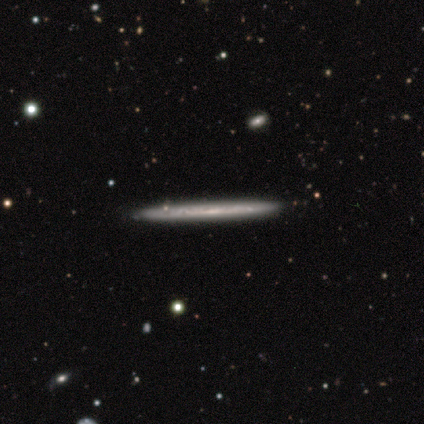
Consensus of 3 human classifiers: Smooth or featured? 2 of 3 (67%) said featured or disk. Edge-on disk? 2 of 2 (100%) said yes. Edge-on bulge? 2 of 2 (100%) said none. Merging? 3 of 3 (100%) said none.